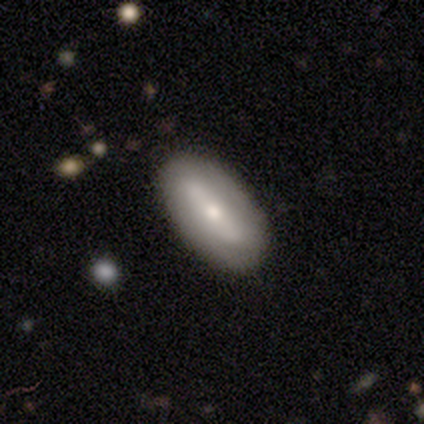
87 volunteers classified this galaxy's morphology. smooth 54%, featured or disk 37%, star or artifact 9%. Down the decision tree: how rounded — in between (81%); merging — none (81%).